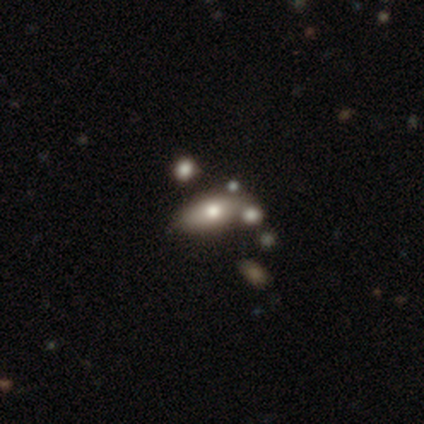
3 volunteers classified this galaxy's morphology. This is likely a smooth galaxy (67%). How rounded: possibly in between (50%, tied with cigar-shaped). Merging: clearly none (100%).